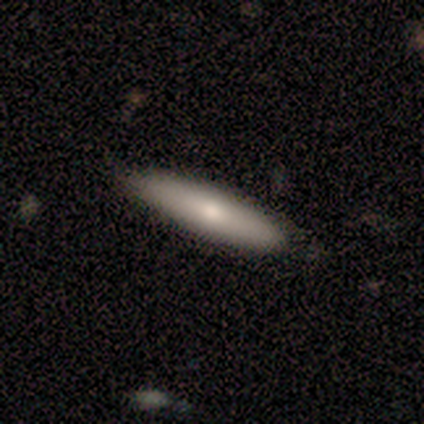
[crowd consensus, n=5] smooth 100%, featured or disk 0%, star or artifact 0%. Down the decision tree: how rounded — cigar-shaped (80%); merging — none (100%).